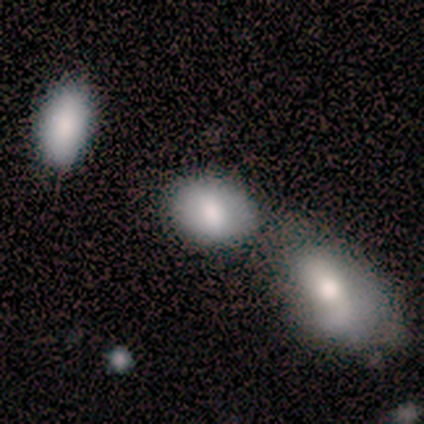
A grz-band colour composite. It shows a smooth galaxy with no disk features (100%) that is in between round and cigar-shaped (100%). Merging: none (50%, tied with major disturbance).